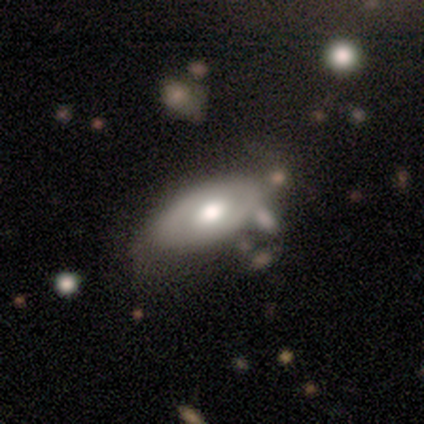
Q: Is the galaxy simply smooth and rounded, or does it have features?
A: featured or disk — 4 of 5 (80%).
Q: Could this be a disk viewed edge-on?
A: no — 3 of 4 (75%).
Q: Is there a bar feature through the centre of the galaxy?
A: no — 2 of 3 (67%).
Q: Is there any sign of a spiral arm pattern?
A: yes — 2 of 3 (67%).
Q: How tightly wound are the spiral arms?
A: tight — 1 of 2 (50%, tied with medium).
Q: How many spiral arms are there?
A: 1 — 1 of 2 (50%, tied with 2).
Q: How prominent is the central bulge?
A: moderate — 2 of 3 (67%).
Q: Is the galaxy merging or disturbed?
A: none — 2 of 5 (40%, tied with major disturbance).